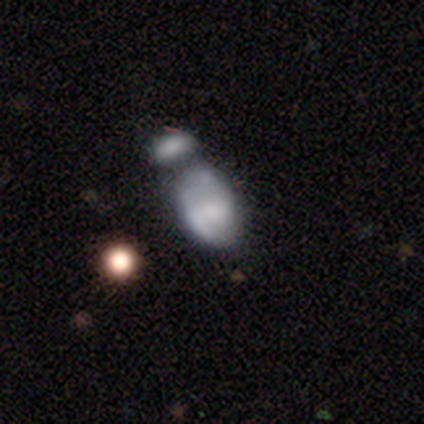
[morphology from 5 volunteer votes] Smooth or featured? smooth (80%)
How rounded? in between (100%)
Merging? merger (60%)